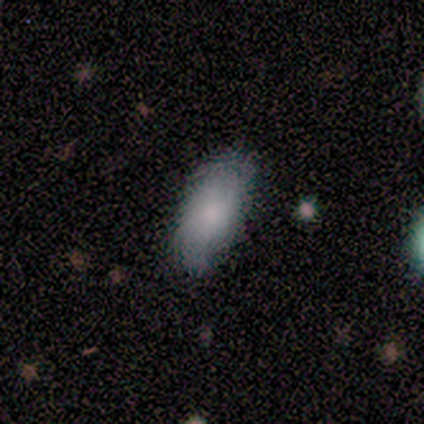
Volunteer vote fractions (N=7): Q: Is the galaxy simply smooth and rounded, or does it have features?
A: smooth — 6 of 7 (86%).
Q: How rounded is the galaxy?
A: in between — 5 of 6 (83%).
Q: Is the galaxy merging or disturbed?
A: none — 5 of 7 (71%).